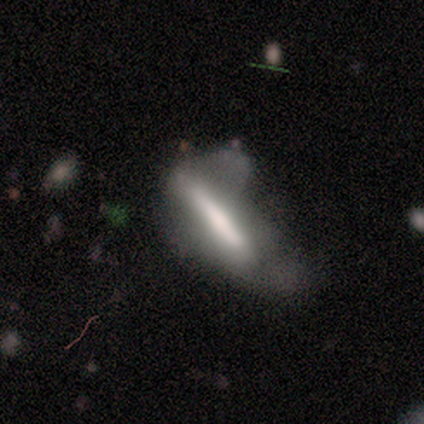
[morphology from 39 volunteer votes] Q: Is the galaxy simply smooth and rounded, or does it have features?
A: smooth — 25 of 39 (64%).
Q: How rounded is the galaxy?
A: cigar-shaped — 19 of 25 (76%).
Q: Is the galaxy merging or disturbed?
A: major disturbance — 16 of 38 (42%).